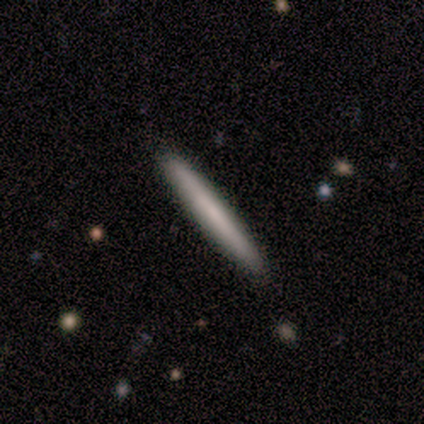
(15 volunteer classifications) smooth 80%, featured or disk 20%, star or artifact 0%. Down the decision tree: how rounded — cigar-shaped (100%); merging — none (93%).